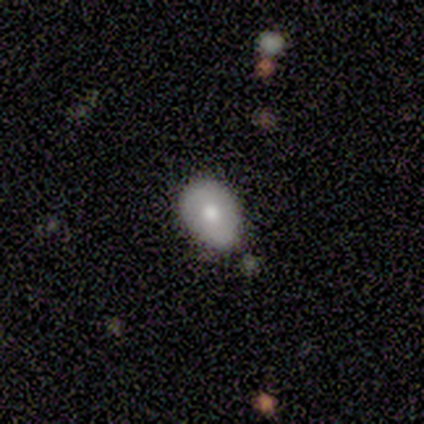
Smooth or featured? 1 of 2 (50%, tied with star or artifact) said smooth. How rounded? 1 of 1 (100%) said in between. Merging? 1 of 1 (100%) said minor disturbance.